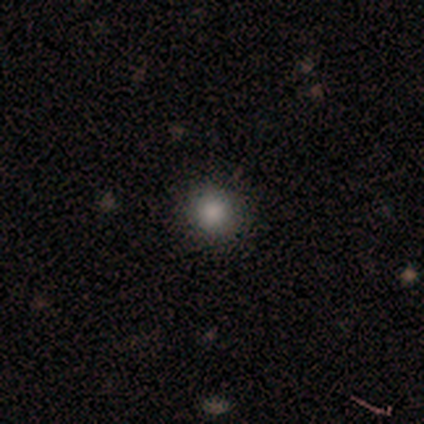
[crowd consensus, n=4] smooth 75%, star or artifact 25%, featured or disk 0%. Down the decision tree: how rounded — round (100%); merging — none (100%).